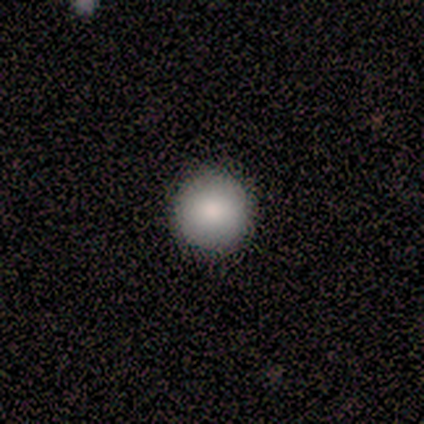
This is clearly a smooth galaxy (80%). How rounded: clearly round (100%). Merging: clearly none (100%).